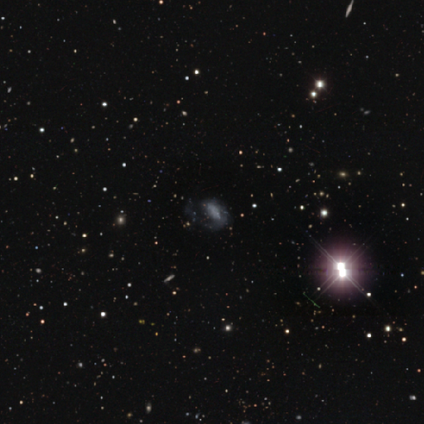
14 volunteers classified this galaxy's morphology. This appears to be a featured or disk galaxy (50%) with no bar (57%), 1 (75%) medium (50%, tied with loose) spiral arms (57%) and no central bulge (57%). Merging: major disturbance (62%).